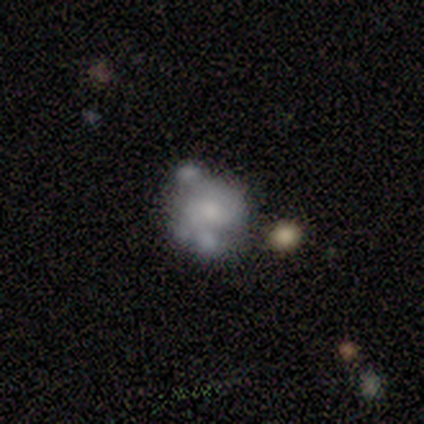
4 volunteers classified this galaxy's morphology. smooth_or_featured: featured or disk (p=1.00)
disk_edge_on: no (p=1.00)
bar: no (p=0.75) [alt: weak p=0.25]
has_spiral_arms: no (p=1.00)
bulge_size: small (p=0.75) [alt: moderate p=0.25]
merging: major disturbance (p=0.50) [alt: none p=0.25]